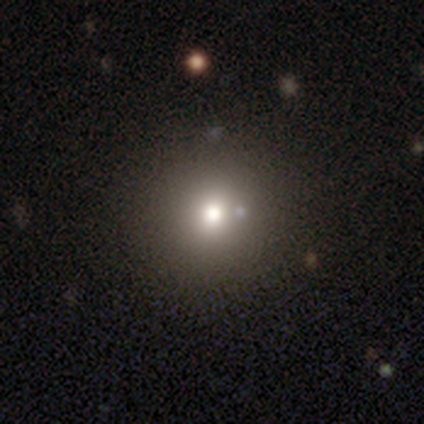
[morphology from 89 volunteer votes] Smooth or featured? smooth (60%)
How rounded? round (96%)
Merging? none (88%)